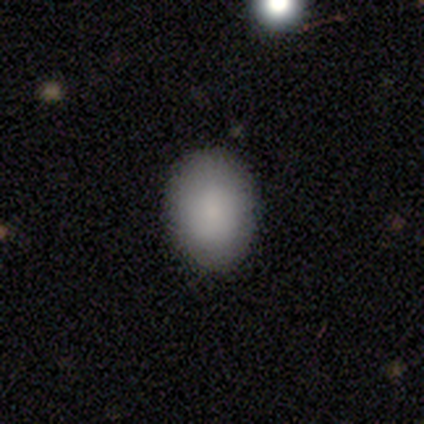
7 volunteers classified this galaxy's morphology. Smooth or featured?
  - smooth: 100% *
  - featured or disk: 0%
  - star or artifact: 0%
How rounded?
  - in between: 57% *
  - round: 43%
  - cigar-shaped: 0%
Merging?
  - none: 71% *
  - minor disturbance: 14%
  - merger: 14%
  - major disturbance: 0%